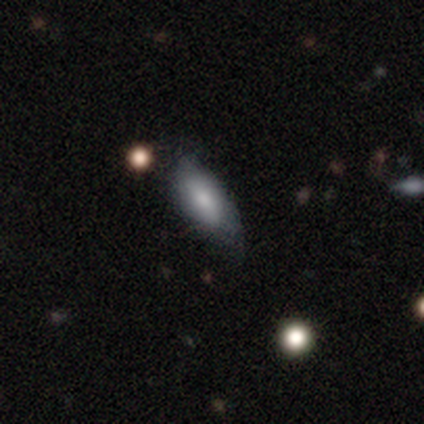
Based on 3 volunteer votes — Morphology: type=smooth (67%); roundness=in between (100%); merging=none (50%, tied with minor disturbance).